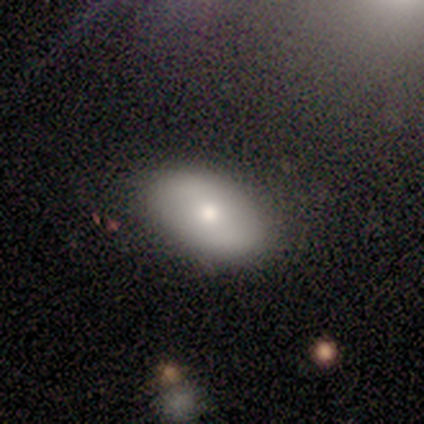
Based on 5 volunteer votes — Smooth or featured: smooth — 80% (featured or disk — 20%)
How rounded: in between — 75% (round — 25%)
Merging: none — 60% (minor disturbance — 40%)